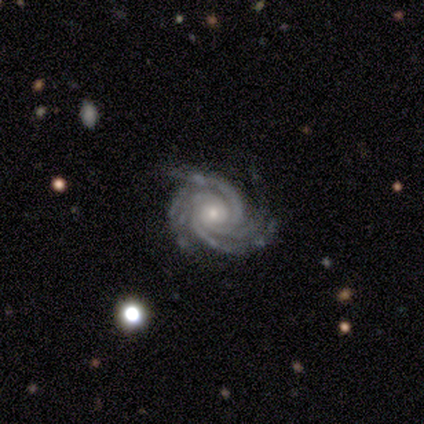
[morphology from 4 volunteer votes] Smooth or featured?
  - featured or disk: 100% *
  - smooth: 0%
  - star or artifact: 0%
Edge-on disk?
  - no: 100% *
  - yes: 0%
Bar?
  - no: 100% *
  - strong: 0%
  - weak: 0%
Spiral arms?
  - yes: 100% *
  - no: 0%
Spiral winding?
  - tight: 100% *
  - medium: 0%
  - loose: 0%
Spiral arm count?
  - 3: 25% * (tied)
  - 4: 25% * (tied)
  - more than 4: 25% * (tied)
  - can't tell: 25% * (tied)
  - 1: 0%
  - 2: 0%
Bulge size?
  - small: 75% *
  - moderate: 25%
  - dominant: 0%
  - large: 0%
  - none: 0%
Merging?
  - none: 50% * (tied)
  - minor disturbance: 50% * (tied)
  - major disturbance: 0%
  - merger: 0%